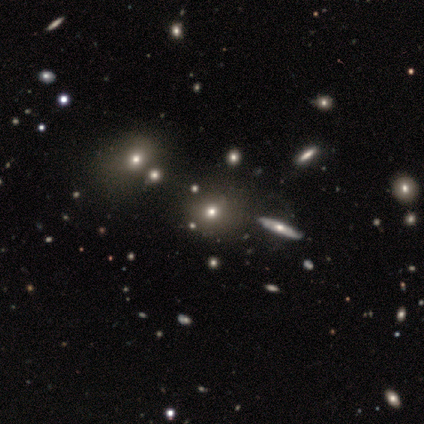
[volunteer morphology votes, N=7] This appears to be a smooth galaxy with no disk features (57%) that is round (75%). Merging: none (83%).